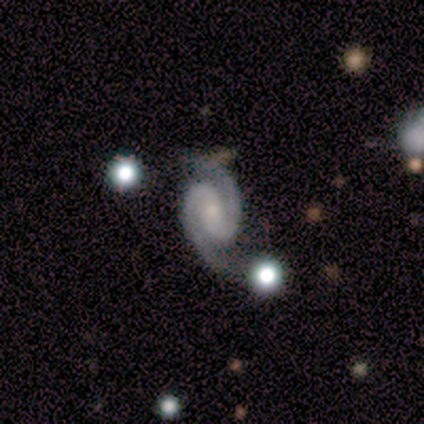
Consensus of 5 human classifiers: smooth_or_featured: featured or disk (p=1.00)
disk_edge_on: no (p=1.00)
bar: strong (p=0.40) [tied with: weak p=0.40]
has_spiral_arms: yes (p=1.00)
spiral_winding: tight (p=0.40) [tied with: medium p=0.40]
spiral_arm_count: 2 (p=1.00)
bulge_size: small (p=0.60) [alt: none p=0.40]
merging: none (p=0.40) [alt: minor disturbance p=0.20]